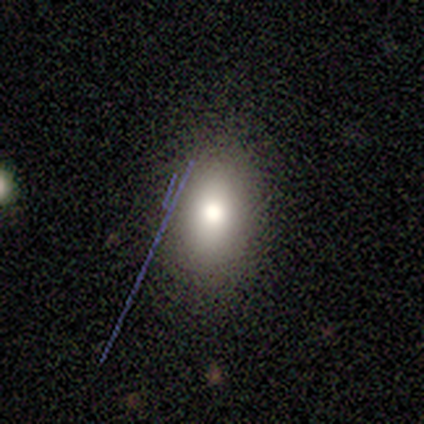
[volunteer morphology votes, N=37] This is likely a smooth galaxy (68%). How rounded: clearly in between (88%). Merging: clearly none (84%).